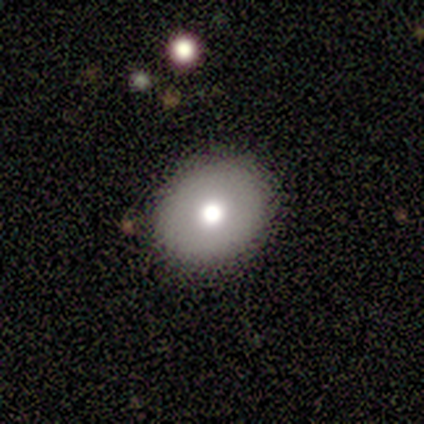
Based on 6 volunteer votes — Morphology: type=smooth (83%); roundness=round (60%); merging=none (100%).